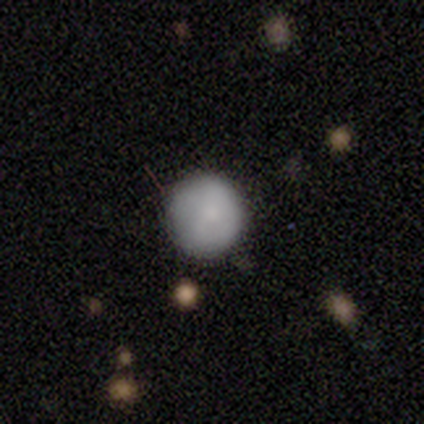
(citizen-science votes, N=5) Morphology: type=smooth (80%); roundness=round (75%); merging=none (100%).